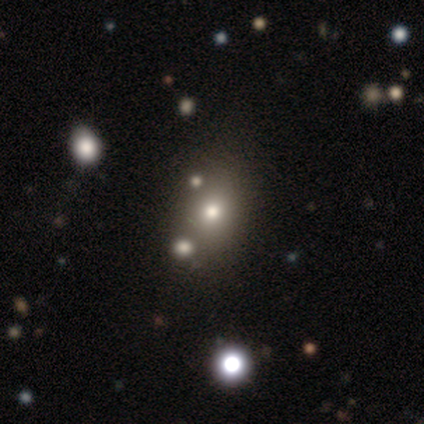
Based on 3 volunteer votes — Morphology: type=featured or disk (67%); edge-on=no (100%); bar=no (100%); spiral arms=no (100%); bulge=dominant (50%, tied with small); merging=merger (100%).